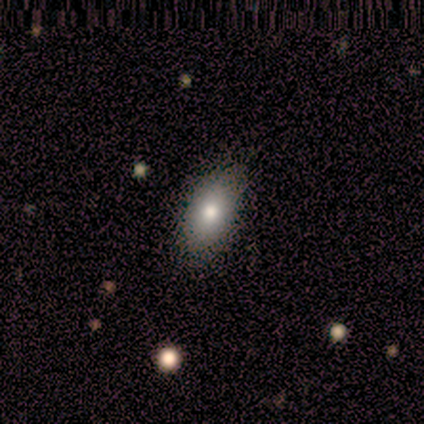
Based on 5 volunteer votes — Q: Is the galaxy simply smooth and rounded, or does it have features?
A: smooth — 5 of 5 (100%).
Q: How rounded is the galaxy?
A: in between — 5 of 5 (100%).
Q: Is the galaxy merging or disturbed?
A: none — 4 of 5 (80%).